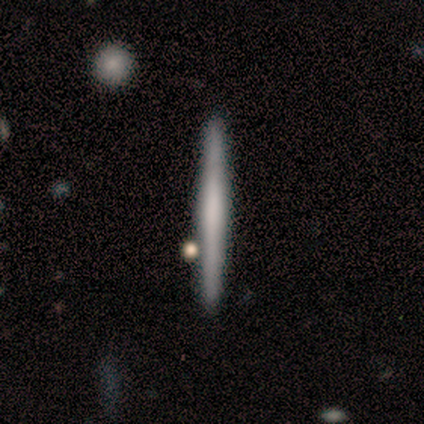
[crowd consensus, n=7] Q: Smooth or featured?
A: featured or disk (71%); runner-up: smooth (29%)
Q: Edge-on disk?
A: yes (100%)
Q: Edge-on bulge?
A: none (60%); runner-up: rounded (40%)
Q: Merging?
A: none (86%); runner-up: minor disturbance (14%)